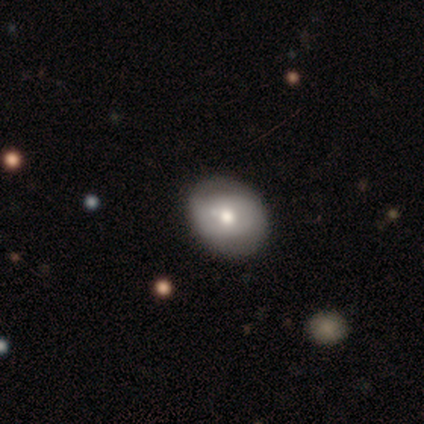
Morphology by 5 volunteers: Volunteers were most divided on "smooth or featured": smooth: 80%, featured or disk: 20%, star or artifact: 0%. More confident: how rounded — round (100%); merging — none (100%).